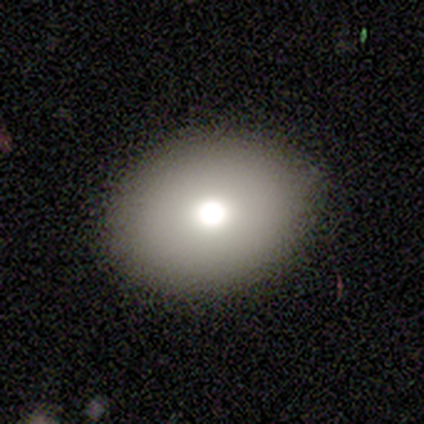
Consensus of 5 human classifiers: Q: Smooth or featured?
A: smooth (60%); runner-up: featured or disk (40%)
Q: How rounded?
A: in between (67%); runner-up: round (33%)
Q: Merging?
A: none (100%)